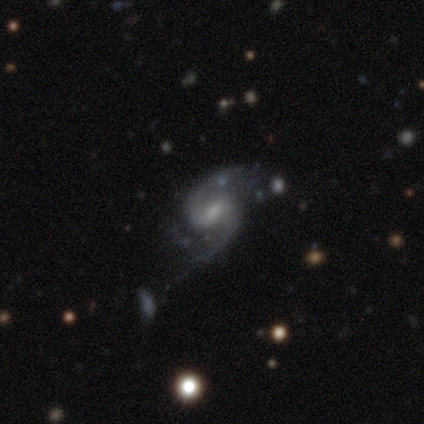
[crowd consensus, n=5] Q: Smooth or featured?
A: featured or disk (100%)
Q: Edge-on disk?
A: no (100%)
Q: Bar?
A: weak (60%); runner-up: strong (20%)
Q: Spiral arms?
A: yes (100%)
Q: Spiral winding?
A: medium (60%); runner-up: loose (40%)
Q: Spiral arm count?
A: 2 (60%); runner-up: 1 (40%)
Q: Bulge size?
A: small (60%); runner-up: moderate (20%)
Q: Merging?
A: none (60%); runner-up: minor disturbance (20%)